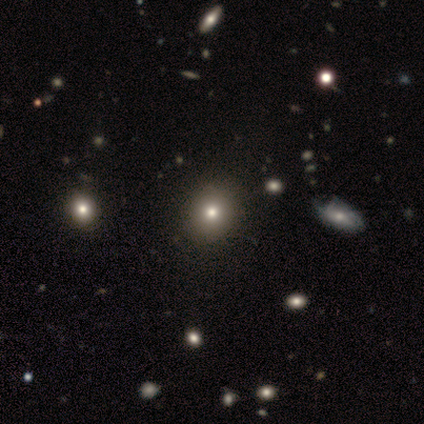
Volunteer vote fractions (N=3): This is clearly a smooth galaxy (100%). How rounded: likely round (67%). Merging: clearly none (100%).